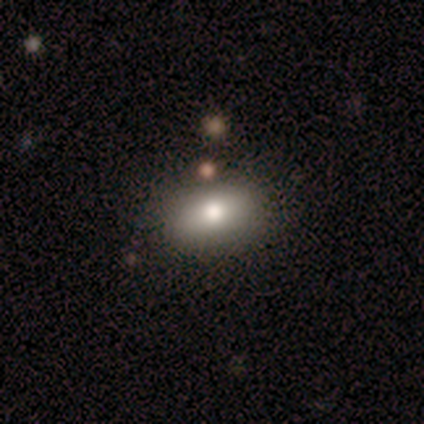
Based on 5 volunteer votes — This appears to be a smooth galaxy with no disk features (80%) that is in between round and cigar-shaped (100%). Merging: none (60%).